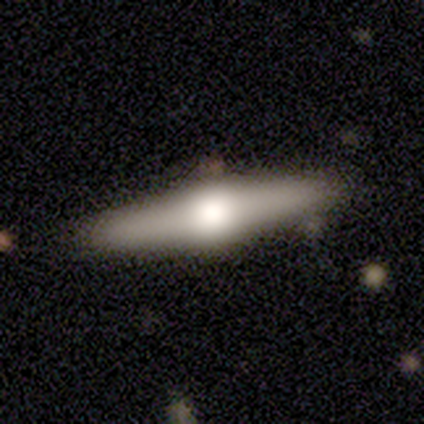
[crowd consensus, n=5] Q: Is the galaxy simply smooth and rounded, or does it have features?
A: featured or disk — 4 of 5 (80%).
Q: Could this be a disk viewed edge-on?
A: yes — 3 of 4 (75%).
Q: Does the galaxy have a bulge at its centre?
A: rounded — 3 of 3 (100%).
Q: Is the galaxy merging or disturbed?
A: none — 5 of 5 (100%).